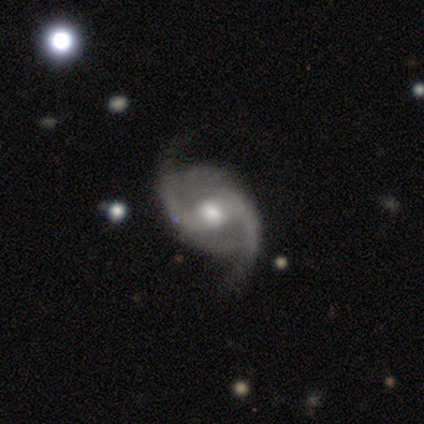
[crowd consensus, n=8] A featured or disk galaxy (100%) with a weak bar (50%), 2 (88%) medium (50%, tied with loose) spiral arms (100%) and a moderate central bulge (100%). Merging: none (75%).